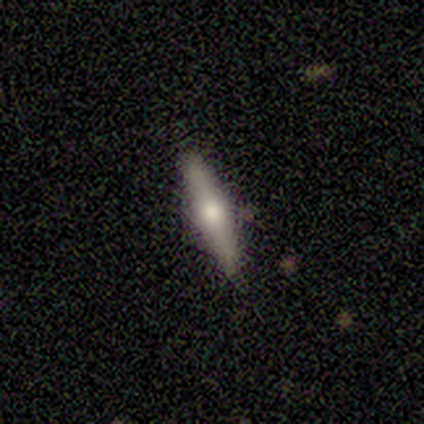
Smooth or featured? featured or disk (100%)
Edge-on disk? yes (100%)
Edge-on bulge? rounded (100%)
Merging? none (80%)